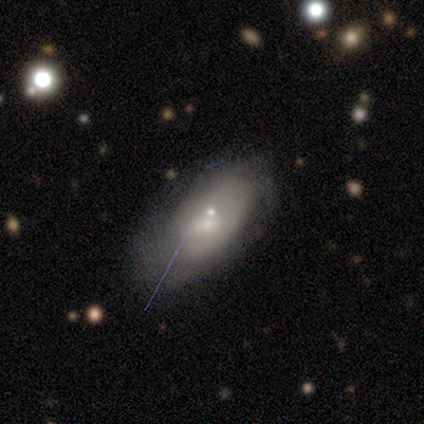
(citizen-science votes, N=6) This is likely a featured or disk galaxy (67%). It is likely not viewed edge-on (75%). Bar: clearly no (100%). Spiral arm pattern: likely yes (67%). Spiral arm count: possibly 2 (50%, tied with can't tell). Spiral winding: clearly tight (100%). Central bulge: likely small (67%). Merging: possibly minor disturbance (50%).